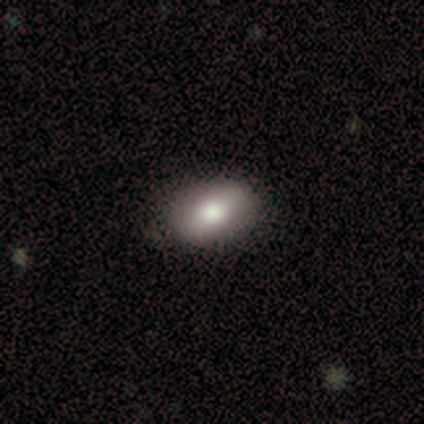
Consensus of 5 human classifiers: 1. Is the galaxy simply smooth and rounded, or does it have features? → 80% featured or disk, 20% smooth, 0% star or artifact.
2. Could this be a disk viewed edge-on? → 75% no, 25% yes.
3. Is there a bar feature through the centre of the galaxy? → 67% no, 33% weak, 0% strong.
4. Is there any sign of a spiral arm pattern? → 67% no, 33% yes.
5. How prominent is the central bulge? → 67% moderate, 33% large, 0% dominant, 0% small, 0% none.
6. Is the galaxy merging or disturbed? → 40% none (tied), 40% minor disturbance (tied), 20% merger, 0% major disturbance.